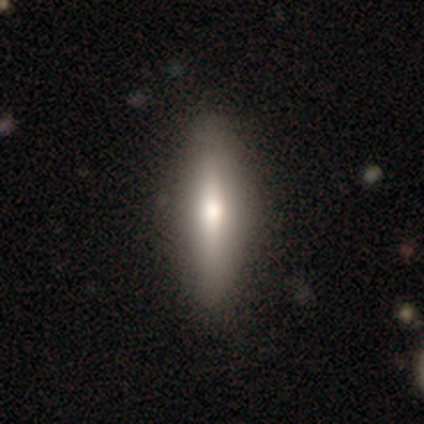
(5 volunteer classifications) Smooth or featured?
  - smooth: 60% *
  - featured or disk: 40%
  - star or artifact: 0%
How rounded?
  - in between: 100% *
  - round: 0%
  - cigar-shaped: 0%
Merging?
  - none: 80% *
  - minor disturbance: 20%
  - major disturbance: 0%
  - merger: 0%